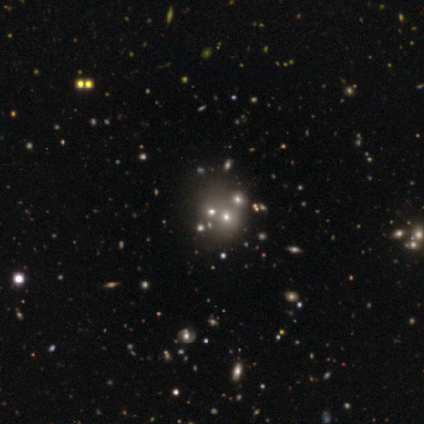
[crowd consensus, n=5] This appears to be a smooth galaxy with no disk features (60%) that is in between round and cigar-shaped (67%). Merging: merger (80%).